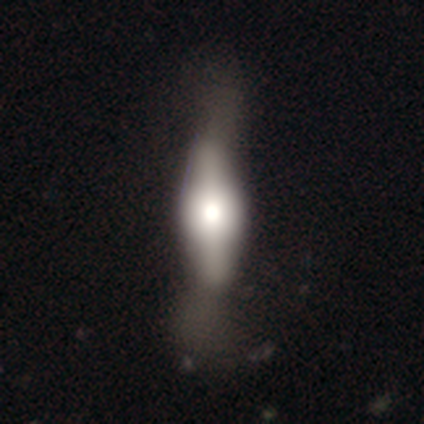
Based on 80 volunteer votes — Overall: featured or disk (54%; smooth 42%). Edge-on disk: yes (91%). Edge-on bulge: rounded (69%; boxy 31%). Merging: major disturbance (23%; none 17%).